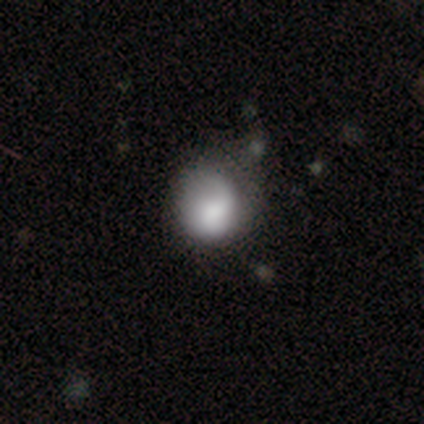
This is likely a smooth galaxy (71%). How rounded: clearly round (89%). Merging: possibly none (52%).